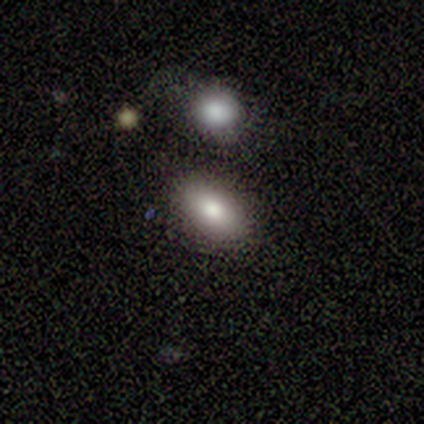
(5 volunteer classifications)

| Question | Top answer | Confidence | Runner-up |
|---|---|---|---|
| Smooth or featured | smooth | 100% | — |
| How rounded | in between | 100% | — |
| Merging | none | 100% | — |